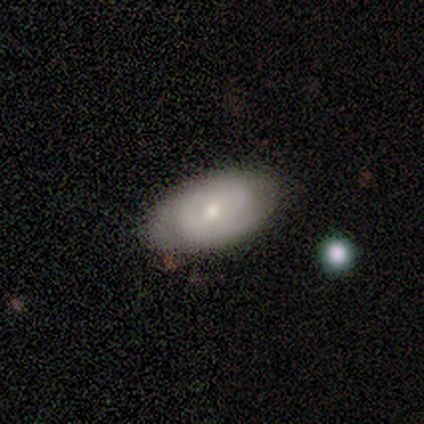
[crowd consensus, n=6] Overall: smooth (50%, tied with featured or disk). How rounded: in between (100%). Merging: none (83%).